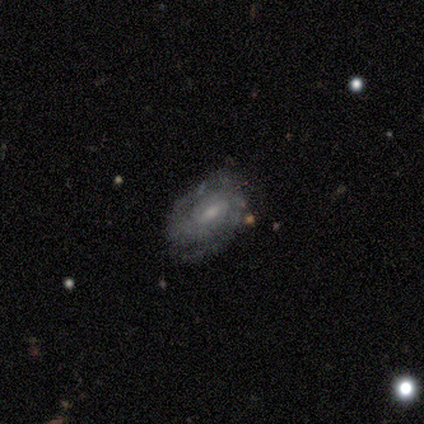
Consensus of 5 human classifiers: smooth-or-featured: featured or disk: 100% | smooth: 0% | star or artifact: 0%
  disk-edge-on: no: 100% | yes: 0%
    bar: weak: 60% | strong: 20% | no: 20%
    has-spiral-arms: yes: 100% | no: 0%
      spiral-winding: tight: 60% | medium: 40% | loose: 0%
      spiral-arm-count: 2: 80% | can't tell: 20% | 1: 0% | 3: 0% | 4: 0% | more than 4: 0%
    bulge-size: moderate: 60% | small: 40% | dominant: 0% | large: 0% | none: 0%
  merging: none: 80% | minor disturbance: 20% | major disturbance: 0% | merger: 0%